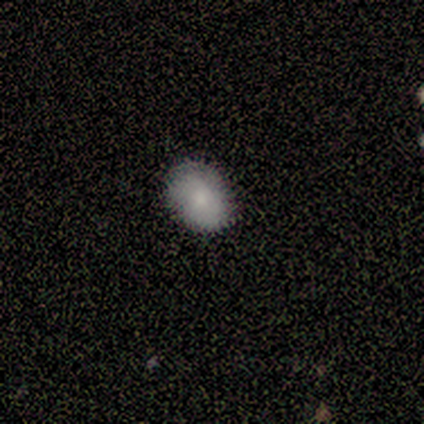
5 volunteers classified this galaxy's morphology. Smooth or featured: smooth — 100%
How rounded: in between — 80% (round — 20%)
Merging: none — 80% (minor disturbance — 20%)